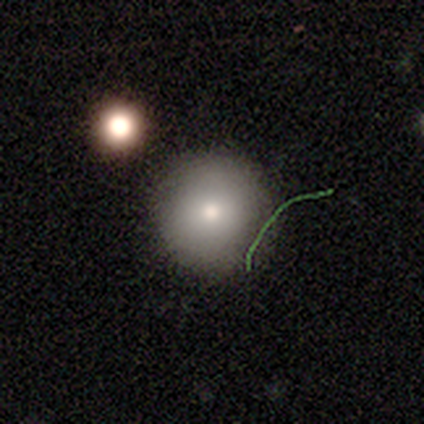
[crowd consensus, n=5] Morphology: type=smooth (80%); roundness=round (100%); merging=none (100%).